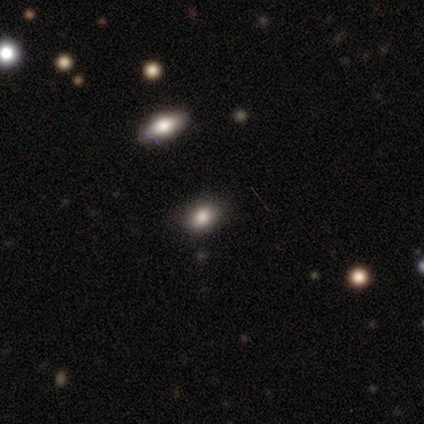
Q: Smooth or featured?
A: smooth (75%); runner-up: star or artifact (25%)
Q: How rounded?
A: in between (67%); runner-up: round (33%)
Q: Merging?
A: none (33%); tied with: minor disturbance (33%); merger (33%)